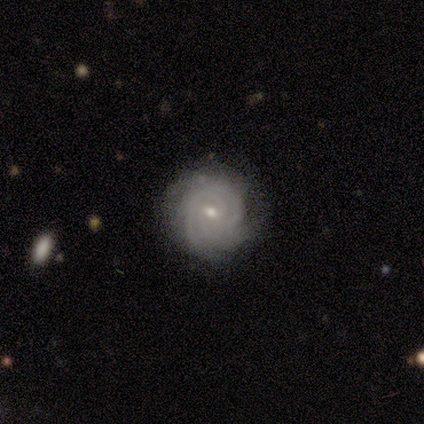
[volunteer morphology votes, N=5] Q: Smooth or featured?
A: featured or disk (100%)
Q: Edge-on disk?
A: no (100%)
Q: Bar?
A: weak (60%); runner-up: no (40%)
Q: Spiral arms?
A: yes (100%)
Q: Spiral winding?
A: tight (100%)
Q: Spiral arm count?
A: 3 (60%); runner-up: 2 (20%)
Q: Bulge size?
A: small (80%); runner-up: moderate (20%)
Q: Merging?
A: none (80%); runner-up: merger (20%)